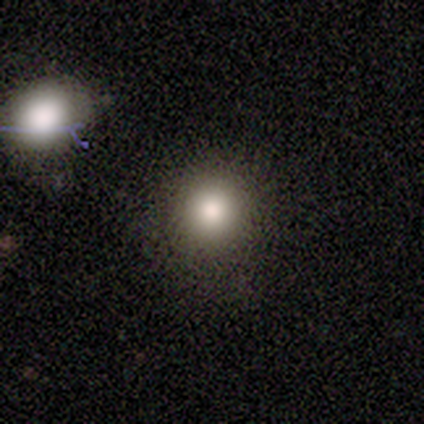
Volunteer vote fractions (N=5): Smooth or featured? 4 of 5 (80%) said smooth. How rounded? 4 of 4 (100%) said round. Merging? 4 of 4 (100%) said none.